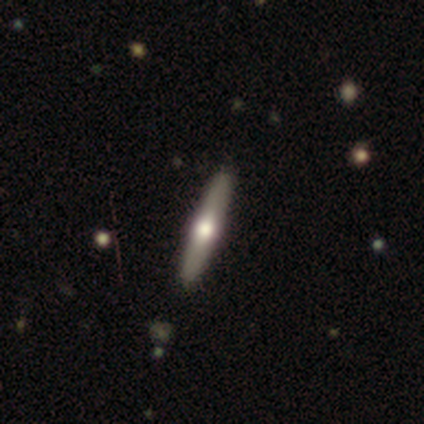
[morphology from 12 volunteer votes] Overall: featured or disk (83%). Edge-on disk: yes (100%). Edge-on bulge: rounded (90%). Merging: none (92%).